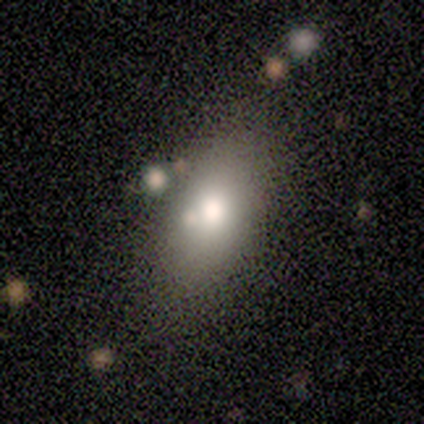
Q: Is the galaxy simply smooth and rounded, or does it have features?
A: smooth — 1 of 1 (100%).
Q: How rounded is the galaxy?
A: round — 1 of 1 (100%).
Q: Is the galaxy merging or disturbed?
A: none — 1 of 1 (100%).